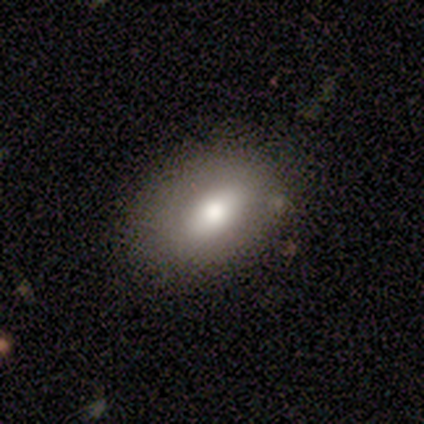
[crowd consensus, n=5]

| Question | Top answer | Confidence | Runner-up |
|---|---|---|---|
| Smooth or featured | smooth | 60% | featured or disk (40%) |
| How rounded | in between | 100% | — |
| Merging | none | 80% | minor disturbance (20%) |